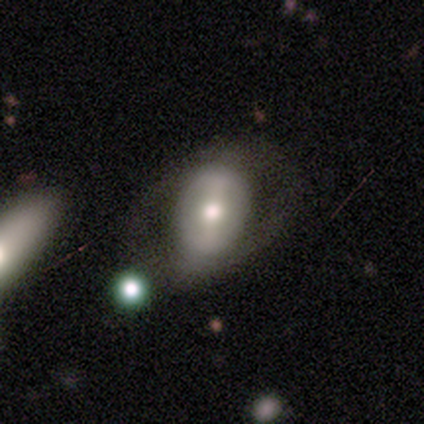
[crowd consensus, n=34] A featured or disk galaxy (53%) with a strong bar (44%), no spiral arms (94%) and a moderate central bulge (83%).

Vote fractions:
- Smooth or featured? featured or disk: 53% / smooth: 38% / star or artifact: 9%
- Edge-on disk? no: 100% / yes: 0%
- Bar? strong: 44% / weak: 33% / no: 22%
- Spiral arms? no: 94% / yes: 6%
- Bulge size? moderate: 83% / small: 17% / dominant: 0% / large: 0% / none: 0%
- Merging? none: 58% / minor disturbance: 26% / major disturbance: 13% / merger: 3%